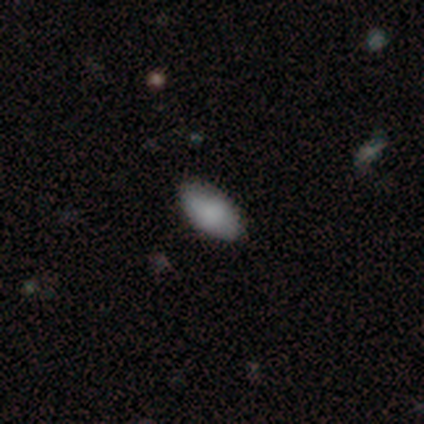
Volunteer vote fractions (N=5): A smooth galaxy with no disk features (80%) that is in between round and cigar-shaped (100%). Merging: none (100%).